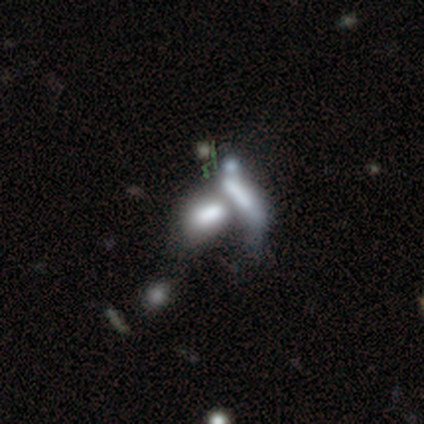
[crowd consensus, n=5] smooth-or-featured: smooth: 60% | featured or disk: 40% | star or artifact: 0%
  how-rounded: in between: 100% | round: 0% | cigar-shaped: 0%
  merging: merger: 60% | none: 20% | major disturbance: 20% | minor disturbance: 0%